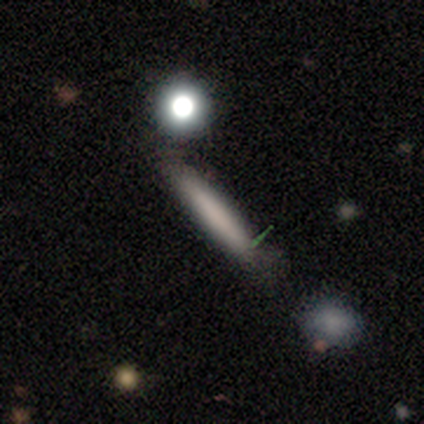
Smooth or featured? smooth (80%)
How rounded? cigar-shaped (100%)
Merging? none (60%)